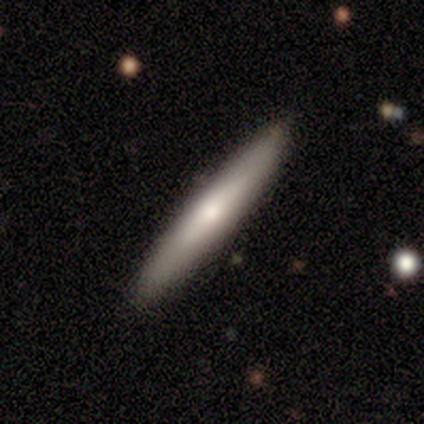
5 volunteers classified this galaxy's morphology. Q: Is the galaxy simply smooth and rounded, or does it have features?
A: featured or disk — 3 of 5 (60%).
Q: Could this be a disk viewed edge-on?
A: yes — 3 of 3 (100%).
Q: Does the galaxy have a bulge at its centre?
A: none — 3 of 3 (100%).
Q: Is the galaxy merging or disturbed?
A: none — 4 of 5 (80%).